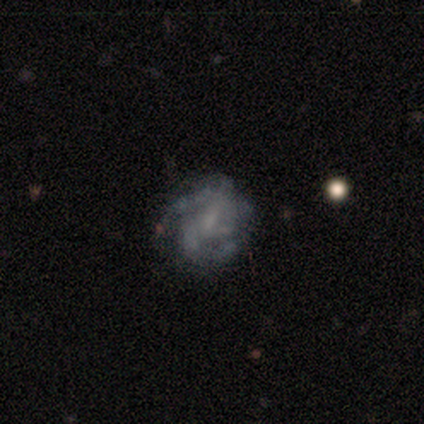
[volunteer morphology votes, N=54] Smooth or featured? 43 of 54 (80%) said featured or disk. Edge-on disk? 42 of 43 (98%) said no. Bar? 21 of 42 (50%) said no. Spiral arms? 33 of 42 (79%) said yes. Spiral winding? 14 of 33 (42%) said medium. Spiral arm count? 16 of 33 (48%) said can't tell. Bulge size? 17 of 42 (40%) said small. Merging? 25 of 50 (50%) said none.